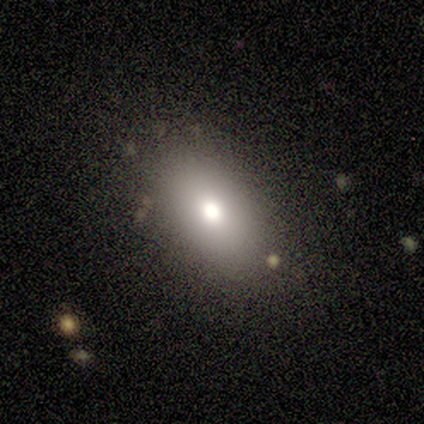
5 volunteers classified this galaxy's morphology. A smooth galaxy with no disk features (60%) that is in between round and cigar-shaped (67%).

Vote fractions:
- Smooth or featured? smooth: 60% / star or artifact: 40% / featured or disk: 0%
- How rounded? in between: 67% / round: 33% / cigar-shaped: 0%
- Merging? none: 100% / minor disturbance: 0% / major disturbance: 0% / merger: 0%